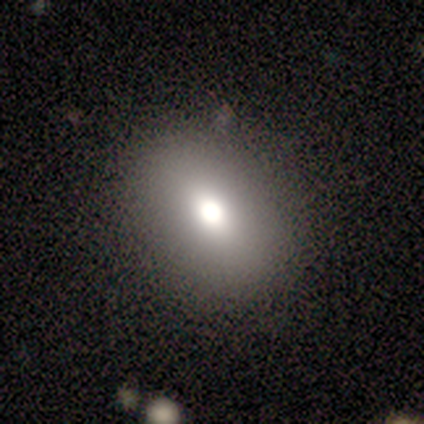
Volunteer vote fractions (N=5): Overall: smooth (60%; featured or disk 40%). How rounded: in between (67%; round 33%). Merging: none (100%).